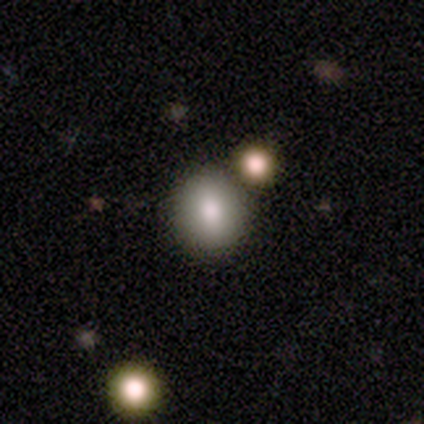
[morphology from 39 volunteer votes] smooth-or-featured: smooth: 77% | featured or disk: 15% | star or artifact: 8%
  how-rounded: round: 60% | in between: 40% | cigar-shaped: 0%
  merging: none: 83% | minor disturbance: 8% | merger: 8% | major disturbance: 0%